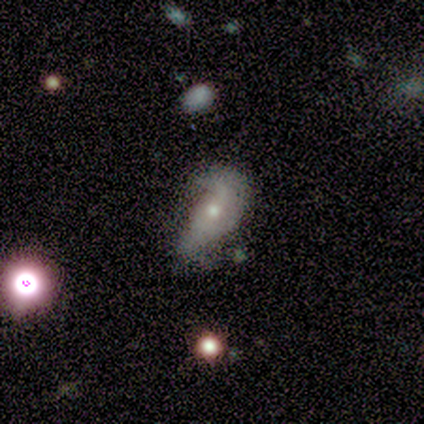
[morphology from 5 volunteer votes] Q: Smooth or featured?
A: featured or disk (60%); runner-up: smooth (20%)
Q: Edge-on disk?
A: no (100%)
Q: Bar?
A: no (67%); runner-up: weak (33%)
Q: Spiral arms?
A: yes (67%); runner-up: no (33%)
Q: Spiral winding?
A: medium (50%); tied with: loose (50%)
Q: Spiral arm count?
A: 2 (100%)
Q: Bulge size?
A: moderate (67%); runner-up: small (33%)
Q: Merging?
A: none (25%); tied with: minor disturbance (25%); major disturbance (25%); merger (25%)